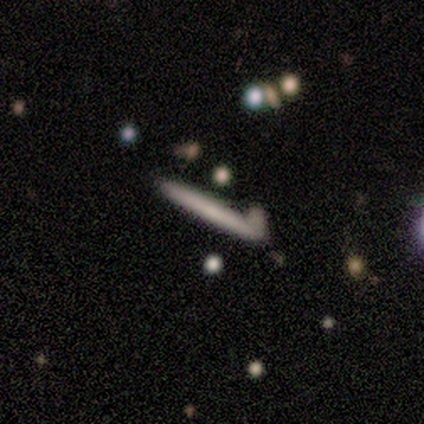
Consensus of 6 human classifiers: smooth_or_featured: featured or disk (p=0.67) [alt: smooth p=0.33]
disk_edge_on: yes (p=1.00)
edge_on_bulge: none (p=0.75) [alt: rounded p=0.25]
merging: none (p=1.00)